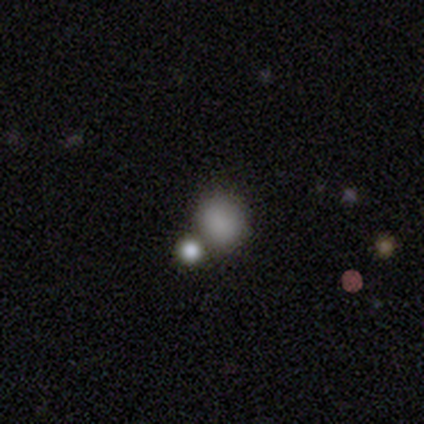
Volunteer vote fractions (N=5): smooth_or_featured: smooth (p=1.00)
how_rounded: round (p=0.60) [alt: in between p=0.40]
merging: none (p=0.40) [tied with: merger p=0.40]